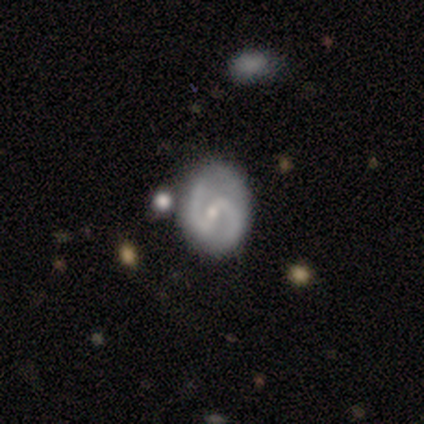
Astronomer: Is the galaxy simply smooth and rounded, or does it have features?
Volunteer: featured or disk — 100%.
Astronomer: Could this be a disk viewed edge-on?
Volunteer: no — 100%.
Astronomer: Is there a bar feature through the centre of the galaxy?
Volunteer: strong — 67%.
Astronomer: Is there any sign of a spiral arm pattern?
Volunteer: yes — 67%.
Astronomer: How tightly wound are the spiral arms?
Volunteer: medium — 50%, tied with loose at 50%.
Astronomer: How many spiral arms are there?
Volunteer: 2 — 100%.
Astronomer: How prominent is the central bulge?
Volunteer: small — 100%.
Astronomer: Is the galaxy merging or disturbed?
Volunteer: none — 67%.